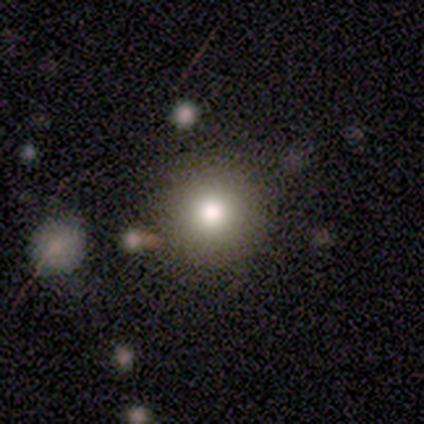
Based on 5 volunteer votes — A smooth galaxy with no disk features (80%) that is round (100%). Merging: none (100%).